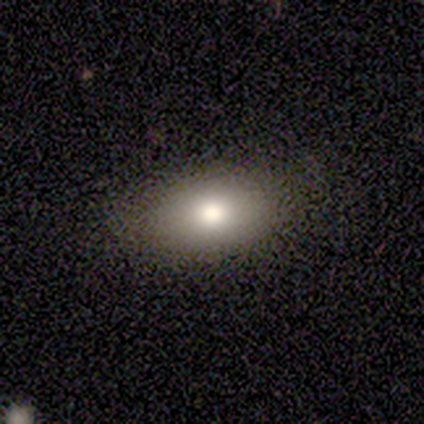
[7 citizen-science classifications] This is clearly a smooth galaxy (86%). How rounded: clearly in between (100%). Merging: clearly none (86%).